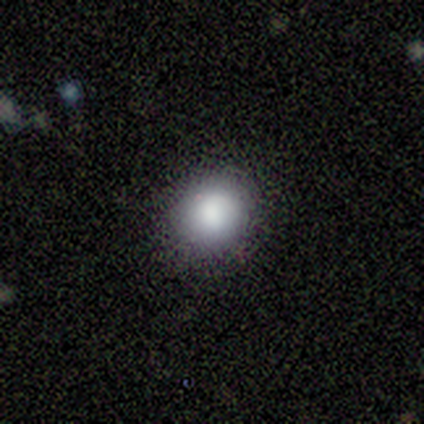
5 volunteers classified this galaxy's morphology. Volunteers were most divided on "smooth or featured": smooth: 80%, featured or disk: 20%, star or artifact: 0%. More confident: how rounded — round (100%); merging — none (80%).